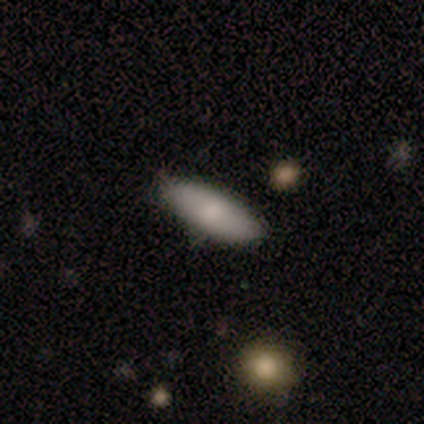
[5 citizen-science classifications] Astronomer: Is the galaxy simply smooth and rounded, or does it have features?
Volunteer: smooth — 80%.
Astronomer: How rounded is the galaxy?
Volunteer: in between — 100%.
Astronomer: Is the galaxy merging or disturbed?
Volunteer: none — 100%.